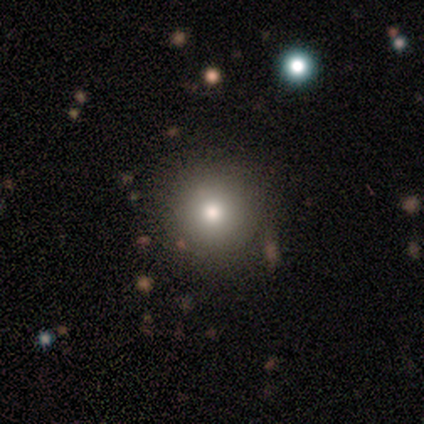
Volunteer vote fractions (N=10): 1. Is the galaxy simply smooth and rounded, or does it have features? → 80% smooth, 20% star or artifact, 0% featured or disk.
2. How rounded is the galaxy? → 100% round, 0% in between, 0% cigar-shaped.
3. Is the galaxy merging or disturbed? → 88% none, 12% major disturbance, 0% minor disturbance, 0% merger.